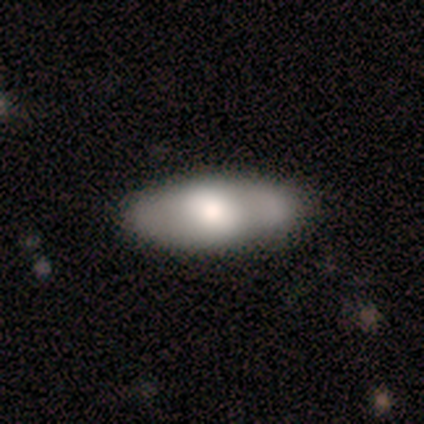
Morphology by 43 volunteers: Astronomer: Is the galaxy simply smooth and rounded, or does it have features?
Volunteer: smooth — 53% (runner-up: featured or disk, 47%).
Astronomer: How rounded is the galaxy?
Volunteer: in between — 96%.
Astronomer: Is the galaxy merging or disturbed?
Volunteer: none — 74%.